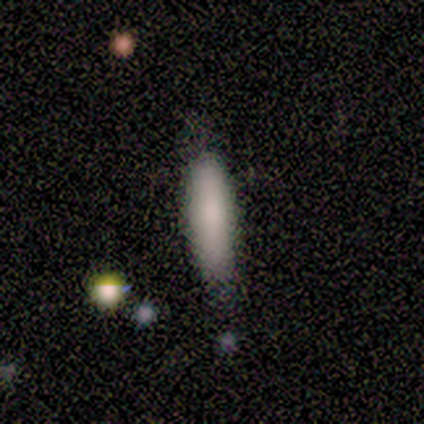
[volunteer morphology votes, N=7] smooth-or-featured: smooth: 86% | featured or disk: 14% | star or artifact: 0%
  how-rounded: in between: 50% | cigar-shaped: 33% | round: 17%
  merging: none: 86% | major disturbance: 14% | minor disturbance: 0% | merger: 0%